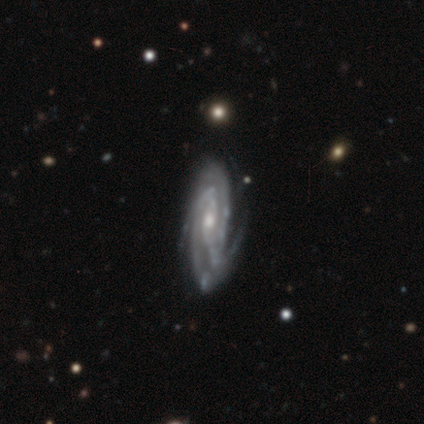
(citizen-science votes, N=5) This is clearly a featured or disk galaxy (100%). It is clearly not viewed edge-on (100%). Bar: marginally weak (40%, tied with no). Spiral arm pattern: clearly yes (100%). Spiral arm count: marginally 3 (40%). Spiral winding: likely tight (60%). Central bulge: clearly moderate (80%). Merging: clearly none (80%).